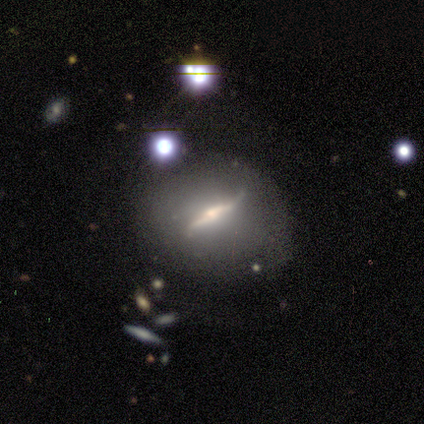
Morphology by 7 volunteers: smooth_or_featured: featured or disk (p=1.00)
disk_edge_on: yes (p=0.57) [alt: no p=0.43]
edge_on_bulge: boxy (p=0.50) [alt: none p=0.25]
merging: none (p=0.57) [alt: minor disturbance p=0.29]